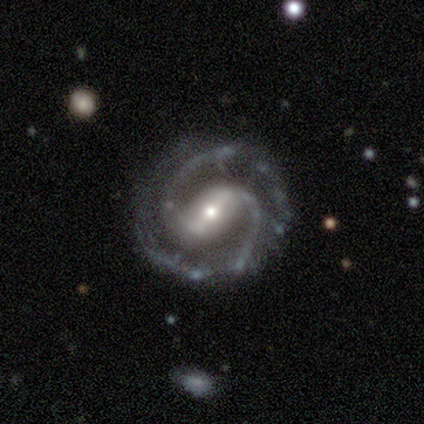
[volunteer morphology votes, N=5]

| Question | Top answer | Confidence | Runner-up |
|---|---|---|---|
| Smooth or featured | featured or disk | 80% | smooth (20%) |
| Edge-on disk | no | 100% | — |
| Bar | weak | 75% | strong (25%) |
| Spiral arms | yes | 100% | — |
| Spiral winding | medium | 75% | tight (25%) |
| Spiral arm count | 2 | 100% | — |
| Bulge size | moderate | 75% | large (25%) |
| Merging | none | 100% | — |